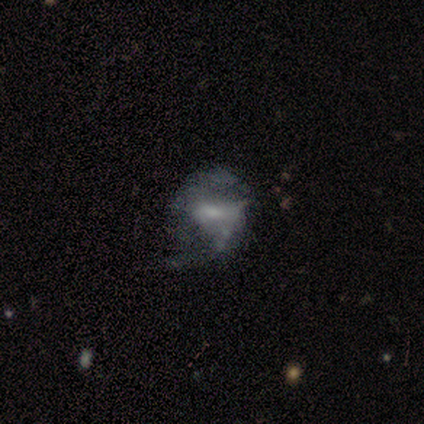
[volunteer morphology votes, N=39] A featured or disk galaxy (77%) with a weak bar (50%), 2 (89%) medium (50%) spiral arms (60%) and a small central bulge (43%).

Vote fractions:
- Smooth or featured? featured or disk: 77% / smooth: 18% / star or artifact: 5%
- Edge-on disk? no: 100% / yes: 0%
- Bar? weak: 50% / no: 30% / strong: 20%
- Spiral arms? yes: 60% / no: 40%
- Spiral winding? medium: 50% / loose: 39% / tight: 11%
- Spiral arm count? 2: 89% / can't tell: 11% / 1: 0% / 3: 0% / 4: 0% / more than 4: 0%
- Bulge size? small: 43% / moderate: 27% / none: 20% / large: 10% / dominant: 0%
- Merging? major disturbance: 35% / none: 30% / minor disturbance: 11% / merger: 0%